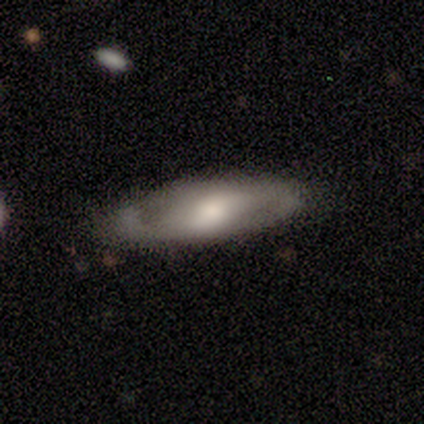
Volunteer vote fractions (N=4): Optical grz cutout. It shows a smooth galaxy with no disk features (50%, tied with featured or disk) that is in between round and cigar-shaped (50%, tied with cigar-shaped). Merging: none (50%, tied with minor disturbance).